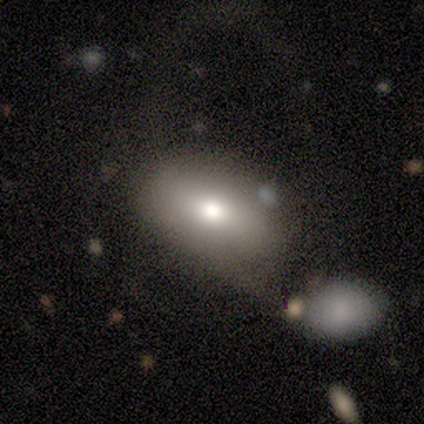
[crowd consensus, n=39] Smooth or featured: smooth — 62% (featured or disk — 31%)
How rounded: in between — 83% (round — 17%)
Merging: none — 36% (minor disturbance — 31%)